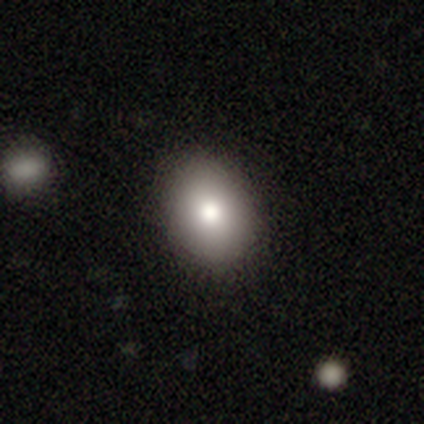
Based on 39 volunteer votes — smooth-or-featured: smooth: 90% | featured or disk: 10% | star or artifact: 0%
  how-rounded: in between: 74% | round: 26% | cigar-shaped: 0%
  merging: none: 95% | minor disturbance: 3% | major disturbance: 3% | merger: 0%